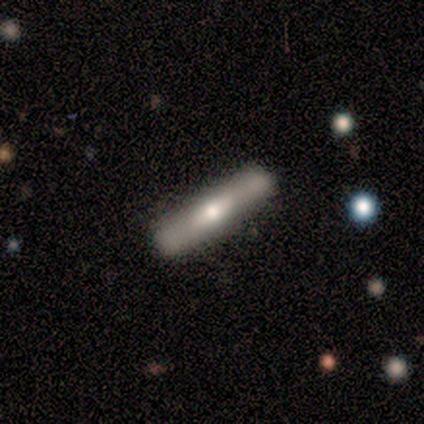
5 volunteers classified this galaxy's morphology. Q: Smooth or featured?
A: featured or disk (80%); runner-up: smooth (20%)
Q: Edge-on disk?
A: yes (50%); tied with: no (50%)
Q: Edge-on bulge?
A: rounded (100%)
Q: Merging?
A: none (100%)